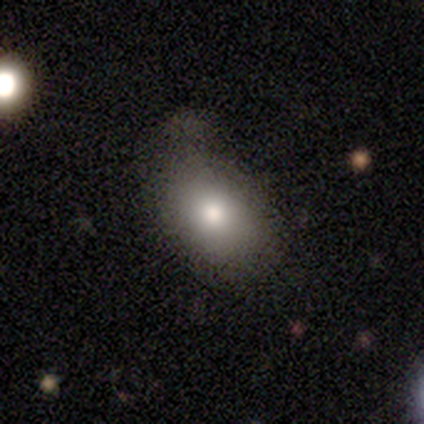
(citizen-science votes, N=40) Smooth or featured? 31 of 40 (78%) said smooth. How rounded? 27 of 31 (87%) said in between. Merging? 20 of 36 (56%) said none.